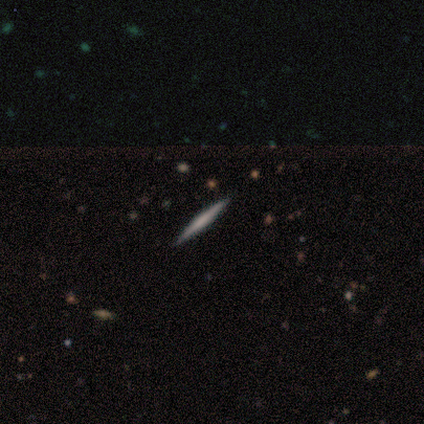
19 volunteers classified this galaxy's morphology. A featured or disk galaxy (68%) viewed edge-on (100%) with no central bulge (69%).

Vote fractions:
- Smooth or featured? featured or disk: 68% / smooth: 26% / star or artifact: 5%
- Edge-on disk? yes: 100% / no: 0%
- Edge-on bulge? none: 69% / rounded: 23% / boxy: 8%
- Merging? none: 83% / minor disturbance: 17% / major disturbance: 0% / merger: 0%